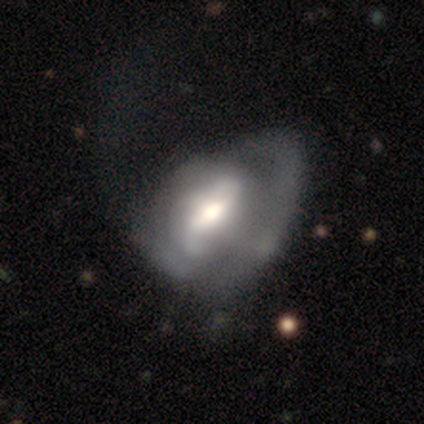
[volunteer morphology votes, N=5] featured or disk 80%, smooth 20%, star or artifact 0%. Down the decision tree: edge-on disk — no (75%); bar — weak (67%); spiral arms — yes (100%); spiral arm count — 2 (67%); spiral winding — loose (67%); bulge size — moderate (67%); merging — minor disturbance (40%, tied with major disturbance).